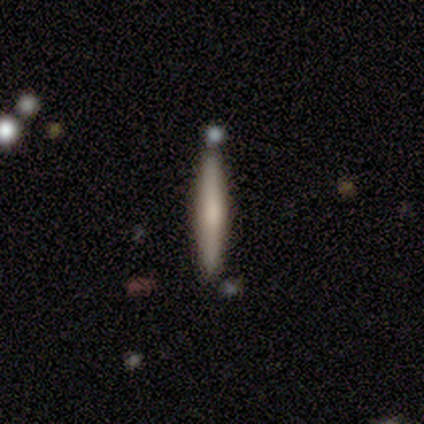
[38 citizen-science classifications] smooth_or_featured: smooth (p=0.55) [alt: featured or disk p=0.45]
how_rounded: cigar-shaped (p=0.95) [alt: in between p=0.05]
merging: none (p=0.82) [alt: merger p=0.08]